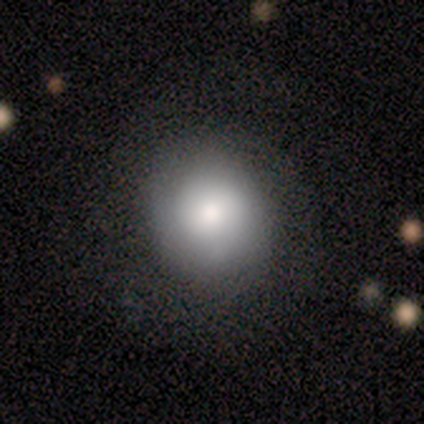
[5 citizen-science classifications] smooth-or-featured: smooth: 80% | featured or disk: 20% | star or artifact: 0%
  how-rounded: round: 100% | in between: 0% | cigar-shaped: 0%
  merging: none: 80% | minor disturbance: 20% | major disturbance: 0% | merger: 0%